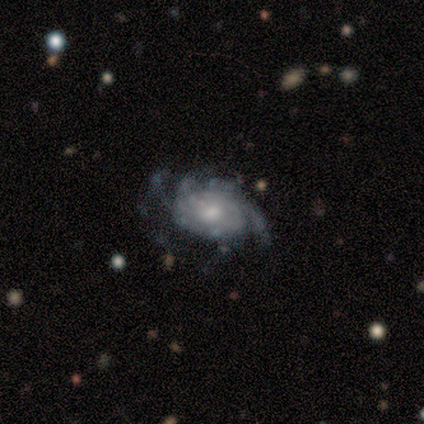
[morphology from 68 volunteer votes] Q: Smooth or featured?
A: featured or disk (82%); runner-up: smooth (12%)
Q: Edge-on disk?
A: no (98%); runner-up: yes (2%)
Q: Bar?
A: no (73%); runner-up: weak (24%)
Q: Spiral arms?
A: yes (93%); runner-up: no (7%)
Q: Spiral winding?
A: tight (51%); runner-up: medium (39%)
Q: Spiral arm count?
A: can't tell (47%); runner-up: more than 4 (16%)
Q: Bulge size?
A: moderate (60%); runner-up: small (22%)
Q: Merging?
A: minor disturbance (38%); runner-up: none (34%)